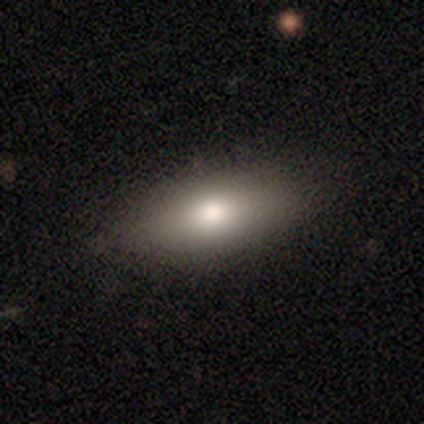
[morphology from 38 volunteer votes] This appears to be a smooth galaxy with no disk features (74%) that is in between round and cigar-shaped (79%). Merging: none (85%).